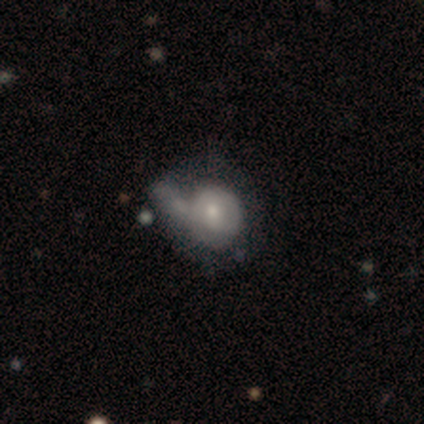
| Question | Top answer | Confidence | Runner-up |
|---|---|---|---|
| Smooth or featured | smooth | 75% | featured or disk (25%) |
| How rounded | round | 67% | in between (33%) |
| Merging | minor disturbance | 50% | major disturbance (25%) |